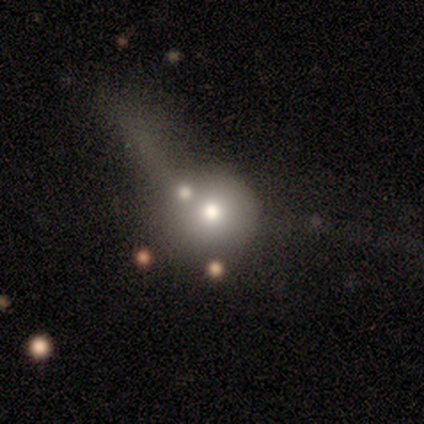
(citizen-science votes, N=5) smooth 60%, featured or disk 20%, star or artifact 20%. Down the decision tree: how rounded — round (67%); merging — major disturbance (50%).